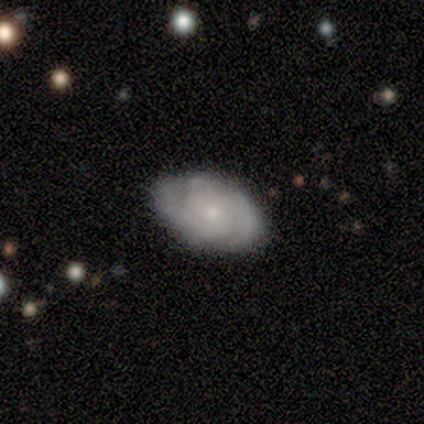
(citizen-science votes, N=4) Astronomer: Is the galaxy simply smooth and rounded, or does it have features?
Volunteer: featured or disk — 75%.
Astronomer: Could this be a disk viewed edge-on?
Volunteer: no — 100%.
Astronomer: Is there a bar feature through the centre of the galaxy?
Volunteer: weak — 67%.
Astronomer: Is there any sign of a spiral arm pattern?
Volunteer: yes — 100%.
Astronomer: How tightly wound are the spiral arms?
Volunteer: tight — 67%.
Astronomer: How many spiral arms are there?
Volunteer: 2 — 67%.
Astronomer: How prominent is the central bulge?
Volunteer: small — 100%.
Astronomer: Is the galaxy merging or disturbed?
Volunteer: none — 100%.